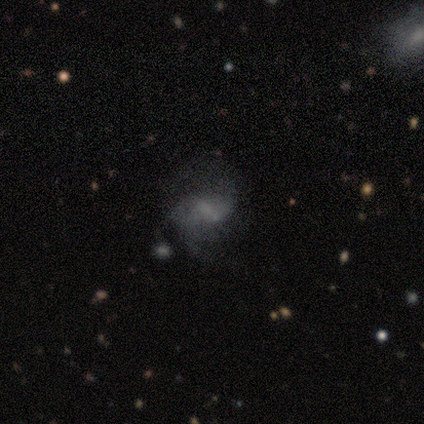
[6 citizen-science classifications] Smooth or featured: featured or disk — 100%
Edge-on disk: no — 100%
Bar: weak — 83% (strong — 17%)
Spiral arms: yes — 100%
Spiral winding: medium — 50% (tied with loose — 50%)
Spiral arm count: 2 — 83% (can't tell — 17%)
Bulge size: none — 50% (small — 33%)
Merging: none — 83% (minor disturbance — 17%)